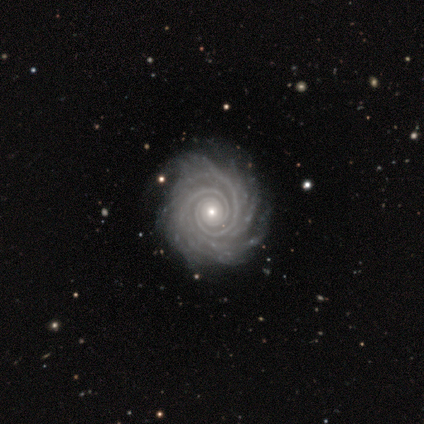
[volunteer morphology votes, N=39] Volunteers were most divided on "spiral arm count": 2: 35%, more than 4: 24%, can't tell: 24%, 4: 9%, 3: 6%, 1: 3%. More confident: edge-on disk — no (100%); bar — no (97%); spiral arms — yes (97%); spiral winding — tight (91%); smooth or featured — featured or disk (90%); merging — none (64%); bulge size — small (57%).